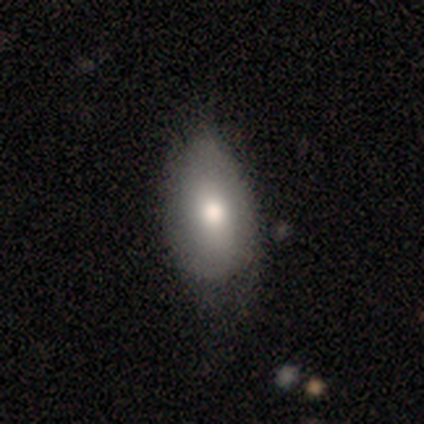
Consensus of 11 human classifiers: Smooth or featured? smooth (82%)
How rounded? in between (100%)
Merging? none (45%, tied with minor disturbance)